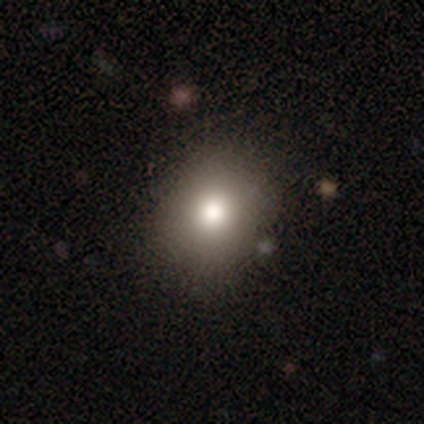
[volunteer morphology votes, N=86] Overall: smooth (79%). How rounded: round (78%). Merging: none (86%).